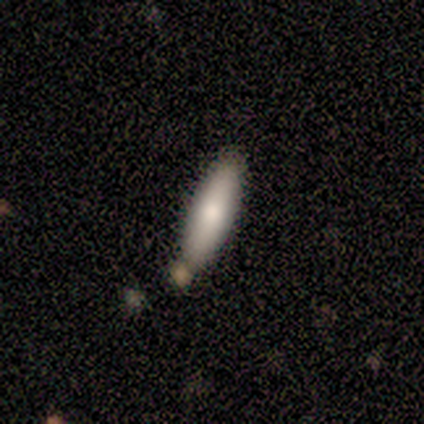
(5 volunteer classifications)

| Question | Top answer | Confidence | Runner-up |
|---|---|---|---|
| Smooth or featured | smooth | 100% | — |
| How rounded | in between | 60% | cigar-shaped (40%) |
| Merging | none | 100% | — |